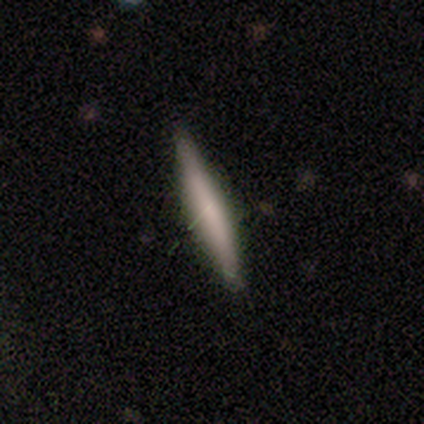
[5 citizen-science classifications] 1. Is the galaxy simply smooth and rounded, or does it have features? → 80% smooth, 20% featured or disk, 0% star or artifact.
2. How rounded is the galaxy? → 100% cigar-shaped, 0% round, 0% in between.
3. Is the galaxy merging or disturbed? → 100% none, 0% minor disturbance, 0% major disturbance, 0% merger.